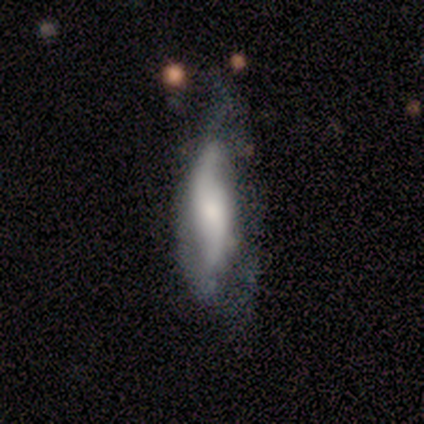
featured or disk 64%, smooth 28%, star or artifact 8%. Down the decision tree: edge-on disk — no (88%); bar — no (73%); spiral arms — yes (82%); spiral arm count — 2 (89%); spiral winding — loose (61%); bulge size — moderate (45%); merging — none (47%).